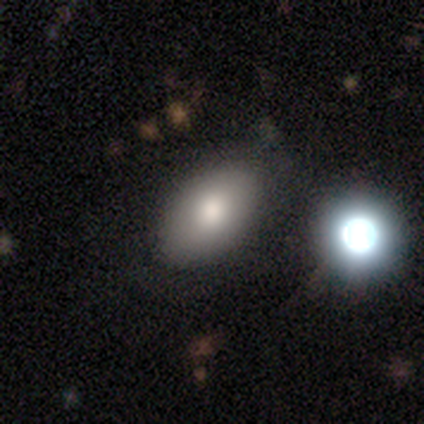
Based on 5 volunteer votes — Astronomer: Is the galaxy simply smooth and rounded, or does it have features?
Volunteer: smooth — 100%.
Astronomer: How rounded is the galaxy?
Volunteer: in between — 100%.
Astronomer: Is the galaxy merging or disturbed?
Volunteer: none — 100%.